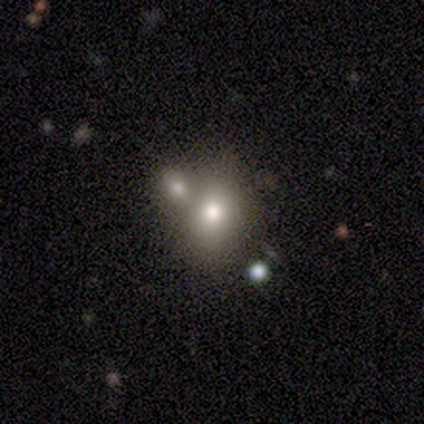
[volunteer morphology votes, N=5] A smooth galaxy with no disk features (60%) that is round (67%).

Vote fractions:
- Smooth or featured? smooth: 60% / featured or disk: 20% / star or artifact: 20%
- How rounded? round: 67% / in between: 33% / cigar-shaped: 0%
- Merging? major disturbance: 50% (tied) / merger: 50% (tied) / none: 0% / minor disturbance: 0%